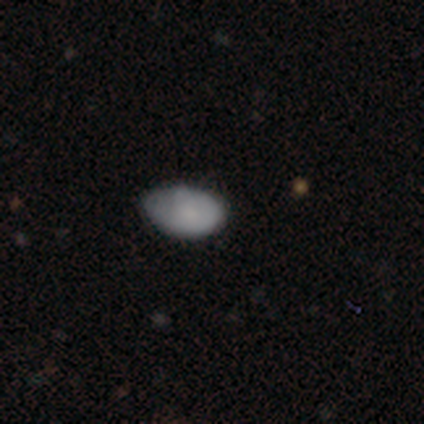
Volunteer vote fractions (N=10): Smooth or featured: smooth — 80% (featured or disk — 10%)
How rounded: in between — 100%
Merging: none — 56% (minor disturbance — 44%)